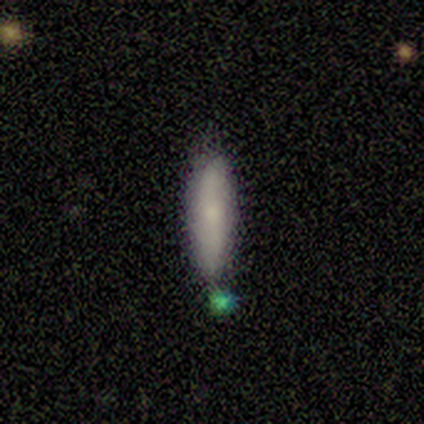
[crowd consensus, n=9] Volunteers were most divided on "how rounded": in between: 71%, cigar-shaped: 29%, round: 0%. More confident: smooth or featured — smooth (78%); merging — none (78%).